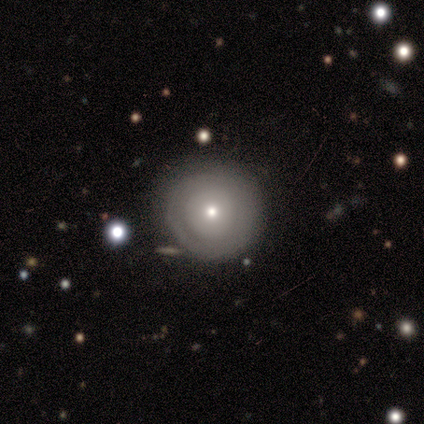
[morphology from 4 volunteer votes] Smooth or featured?
  - smooth: 75% *
  - featured or disk: 25%
  - star or artifact: 0%
How rounded?
  - round: 100% *
  - in between: 0%
  - cigar-shaped: 0%
Merging?
  - none: 100% *
  - minor disturbance: 0%
  - major disturbance: 0%
  - merger: 0%